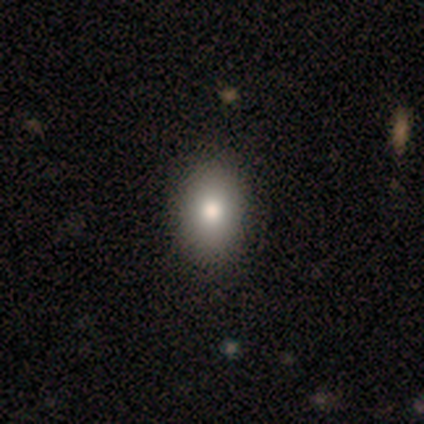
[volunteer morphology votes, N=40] Overall: smooth (72%). How rounded: in between (90%). Merging: none (67%).